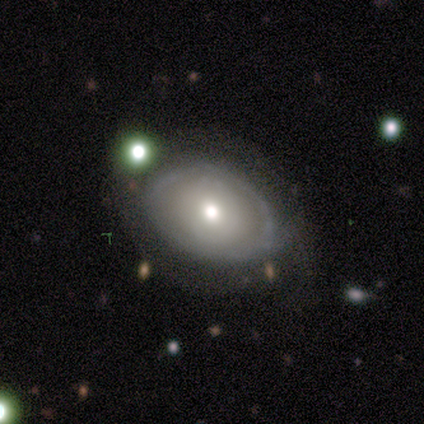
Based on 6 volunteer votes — Overall: smooth (50%; featured or disk 33%). How rounded: round (67%; in between 33%). Merging: none (40%, tied with merger).